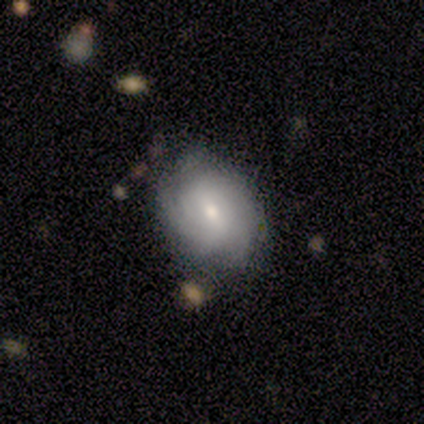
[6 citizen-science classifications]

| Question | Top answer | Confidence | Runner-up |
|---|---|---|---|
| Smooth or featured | featured or disk | 67% | smooth (33%) |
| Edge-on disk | no | 100% | — |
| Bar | no | 75% | weak (25%) |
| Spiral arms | yes | 75% | no (25%) |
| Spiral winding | tight | 100% | — |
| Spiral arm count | can't tell | 67% | 3 (33%) |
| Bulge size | small | 50% | moderate (25%) |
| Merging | none | 83% | minor disturbance (17%) |